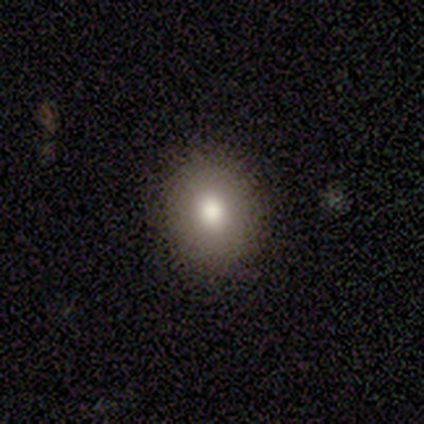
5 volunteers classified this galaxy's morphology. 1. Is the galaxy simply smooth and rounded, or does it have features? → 40% smooth (tied), 40% featured or disk (tied), 20% star or artifact.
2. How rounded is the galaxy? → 50% round (tied), 50% in between (tied), 0% cigar-shaped.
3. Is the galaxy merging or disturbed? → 75% none, 25% minor disturbance, 0% major disturbance, 0% merger.